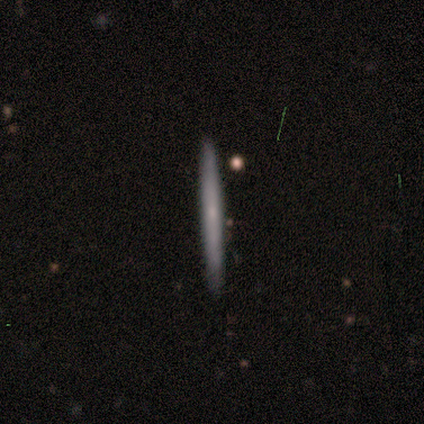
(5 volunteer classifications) Morphology: type=smooth (60%); roundness=cigar-shaped (100%); merging=none (80%).